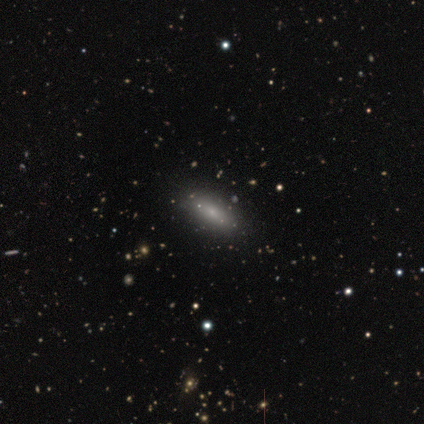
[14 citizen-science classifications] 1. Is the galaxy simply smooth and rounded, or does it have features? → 50% smooth, 29% featured or disk, 21% star or artifact.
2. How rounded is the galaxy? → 57% in between, 29% cigar-shaped, 14% round.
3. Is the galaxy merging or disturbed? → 82% none, 9% major disturbance, 9% merger, 0% minor disturbance.